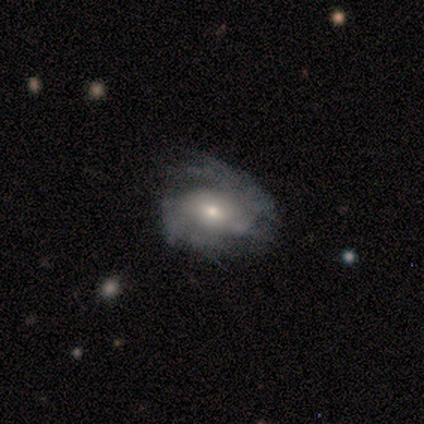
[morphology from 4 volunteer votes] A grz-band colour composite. It shows a featured or disk galaxy (100%) with a weak bar (50%, tied with no), 2 (50%, tied with can't tell) medium (100%) spiral arms (50%, tied with no) and a moderate central bulge (50%, tied with small). Merging: minor disturbance (50%).